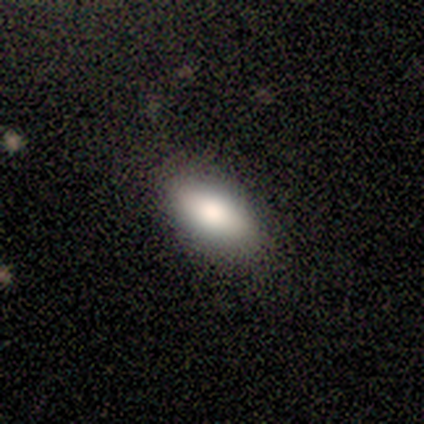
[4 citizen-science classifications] smooth 100%, featured or disk 0%, star or artifact 0%. Down the decision tree: how rounded — in between (75%); merging — none (100%).